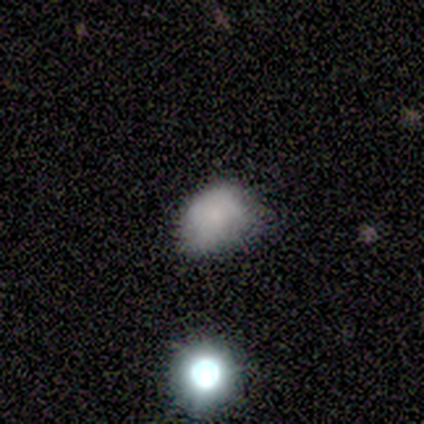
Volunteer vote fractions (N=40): smooth-or-featured: smooth: 68% | featured or disk: 28% | star or artifact: 5%
  how-rounded: in between: 70% | round: 26% | cigar-shaped: 4%
  merging: none: 61% | minor disturbance: 34% | major disturbance: 5% | merger: 0%